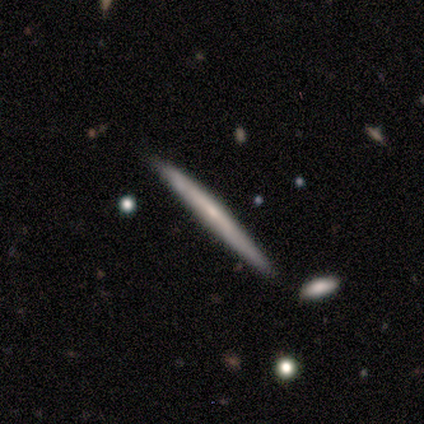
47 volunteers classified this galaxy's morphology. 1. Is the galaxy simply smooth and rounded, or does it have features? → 77% featured or disk, 23% smooth, 0% star or artifact.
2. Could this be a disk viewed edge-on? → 97% yes, 3% no.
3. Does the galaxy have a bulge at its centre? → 63% none, 29% rounded, 9% boxy.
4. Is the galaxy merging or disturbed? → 89% none, 9% minor disturbance, 2% merger, 0% major disturbance.